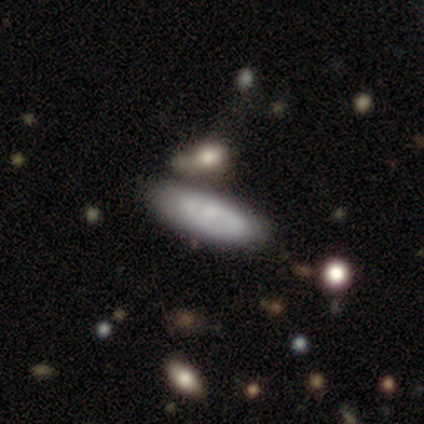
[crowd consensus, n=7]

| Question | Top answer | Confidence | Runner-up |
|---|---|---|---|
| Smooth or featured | smooth | 57% | featured or disk (43%) |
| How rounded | in between | 75% | cigar-shaped (25%) |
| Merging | none | 57% | minor disturbance (29%) |